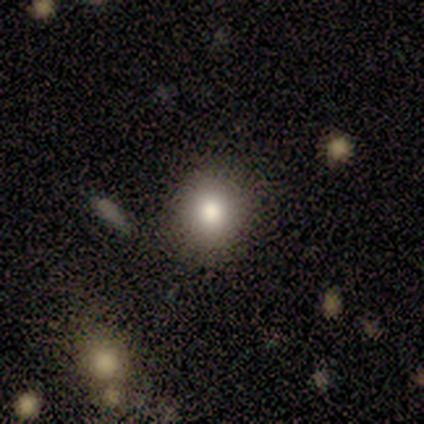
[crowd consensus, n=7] Smooth or featured? smooth (71%)
How rounded? round (80%)
Merging? none (86%)